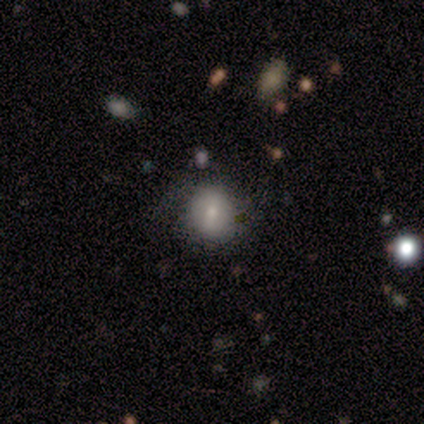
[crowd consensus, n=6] Overall: smooth (67%; star or artifact 33%). How rounded: round (75%). Merging: none (100%).